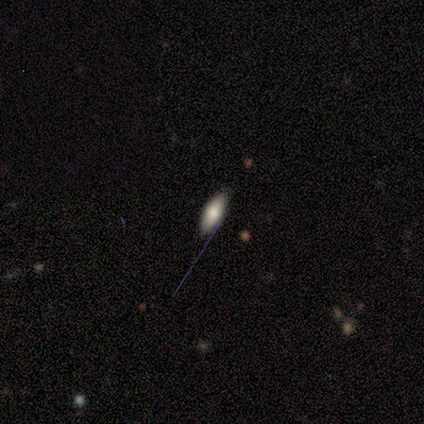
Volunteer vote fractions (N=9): Smooth or featured?
  - smooth: 78% *
  - featured or disk: 11%
  - star or artifact: 11%
How rounded?
  - in between: 71% *
  - cigar-shaped: 29%
  - round: 0%
Merging?
  - none: 75% *
  - minor disturbance: 25%
  - major disturbance: 0%
  - merger: 0%